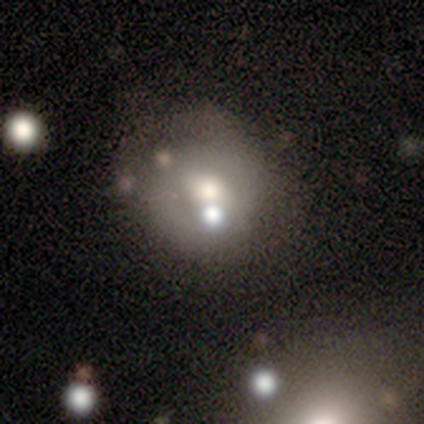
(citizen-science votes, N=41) Q: Smooth or featured?
A: smooth (49%); runner-up: featured or disk (41%)
Q: How rounded?
A: round (75%); runner-up: in between (25%)
Q: Merging?
A: none (54%); runner-up: merger (24%)